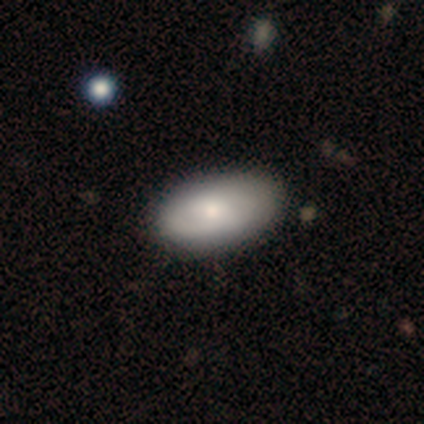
A smooth galaxy with no disk features (72%) that is in between round and cigar-shaped (97%). Merging: none (76%).